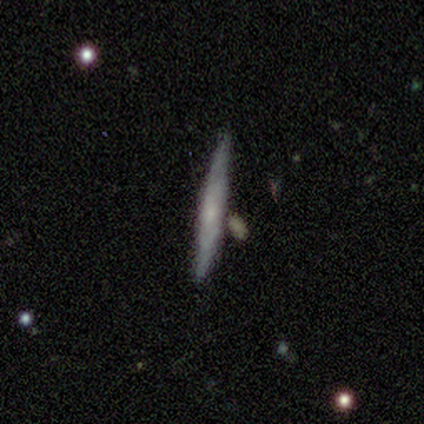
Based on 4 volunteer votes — A featured or disk galaxy (75%) viewed edge-on (100%) with no central bulge (100%).

Vote fractions:
- Smooth or featured? featured or disk: 75% / smooth: 25% / star or artifact: 0%
- Edge-on disk? yes: 100% / no: 0%
- Edge-on bulge? none: 100% / boxy: 0% / rounded: 0%
- Merging? none: 100% / minor disturbance: 0% / major disturbance: 0% / merger: 0%